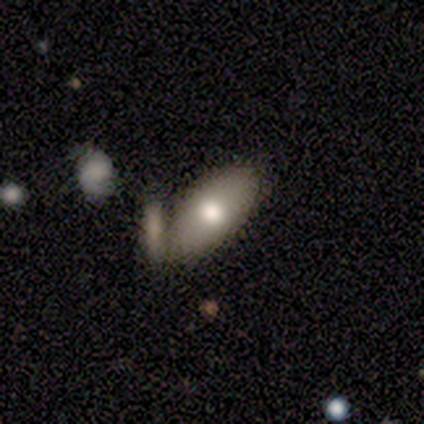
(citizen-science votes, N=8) Smooth or featured: smooth — 75% (featured or disk — 25%)
How rounded: in between — 83% (round — 17%)
Merging: none — 75% (minor disturbance — 12%)